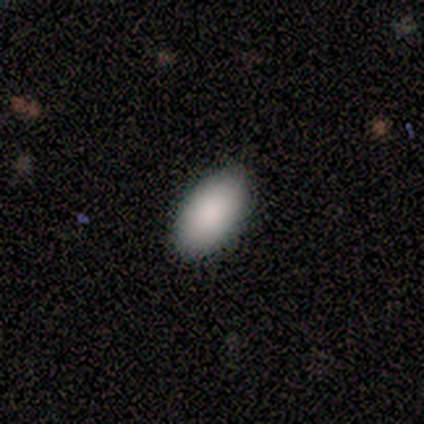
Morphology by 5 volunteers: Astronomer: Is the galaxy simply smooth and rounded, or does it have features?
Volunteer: smooth — 100%.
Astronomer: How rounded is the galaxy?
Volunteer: in between — 100%.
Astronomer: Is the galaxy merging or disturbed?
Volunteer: none — 80%.